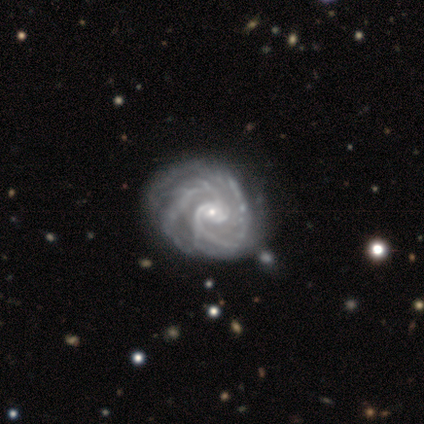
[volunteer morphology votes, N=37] Smooth or featured: featured or disk — 100%
Edge-on disk: no — 95% (yes — 5%)
Bar: no — 86% (weak — 11%)
Spiral arms: yes — 100%
Spiral winding: tight — 57% (medium — 40%)
Spiral arm count: 2 — 60% (can't tell — 17%)
Bulge size: small — 80% (moderate — 11%)
Merging: none — 46% (minor disturbance — 22%)